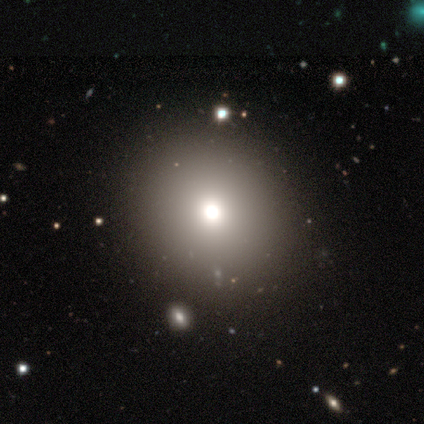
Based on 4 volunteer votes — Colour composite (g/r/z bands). It shows a smooth galaxy with no disk features (50%, tied with star or artifact) that is round (50%, tied with in between). Merging: none (50%, tied with minor disturbance).